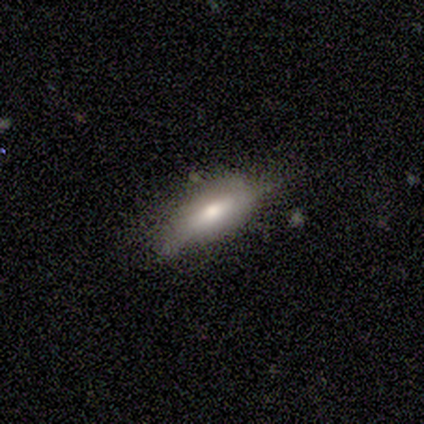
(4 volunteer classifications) Smooth or featured?
  - smooth: 75% *
  - featured or disk: 25%
  - star or artifact: 0%
How rounded?
  - cigar-shaped: 67% *
  - in between: 33%
  - round: 0%
Merging?
  - none: 75% *
  - minor disturbance: 25%
  - major disturbance: 0%
  - merger: 0%